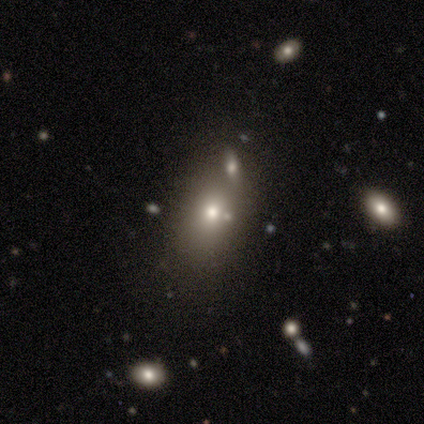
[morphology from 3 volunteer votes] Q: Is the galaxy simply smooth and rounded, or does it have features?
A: smooth — 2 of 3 (67%).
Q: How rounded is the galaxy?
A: in between — 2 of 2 (100%).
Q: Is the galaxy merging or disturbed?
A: none — 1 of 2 (50%, tied with minor disturbance).